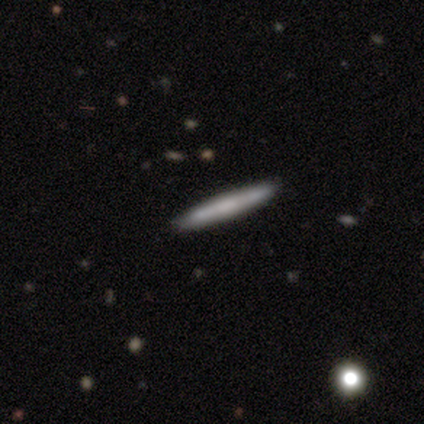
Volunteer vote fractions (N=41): Morphology: type=smooth (51%); roundness=cigar-shaped (100%); merging=none (95%).